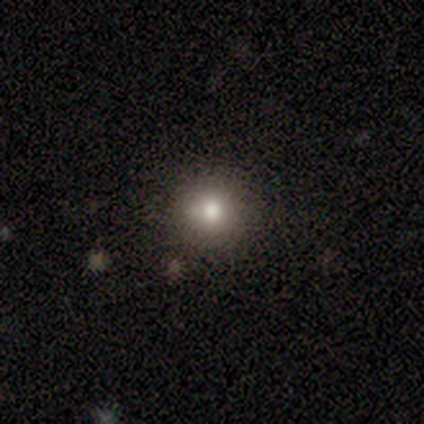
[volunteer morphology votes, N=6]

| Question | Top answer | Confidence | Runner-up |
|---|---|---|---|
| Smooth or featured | smooth | 50% | tied: star or artifact (50%) |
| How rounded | round | 100% | — |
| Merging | none | 67% | minor disturbance (33%) |